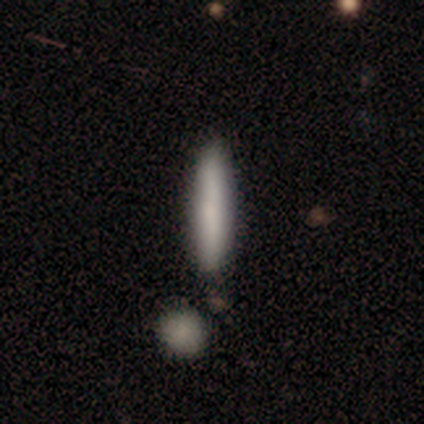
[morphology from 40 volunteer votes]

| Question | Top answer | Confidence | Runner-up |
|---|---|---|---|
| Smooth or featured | smooth | 75% | featured or disk (22%) |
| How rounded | cigar-shaped | 90% | in between (10%) |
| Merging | none | 56% | merger (15%) |